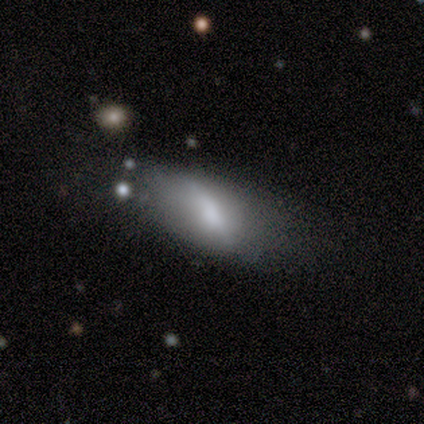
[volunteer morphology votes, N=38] This is likely a smooth galaxy (61%). How rounded: likely in between (70%). Merging: marginally minor disturbance (33%, tied with major disturbance).